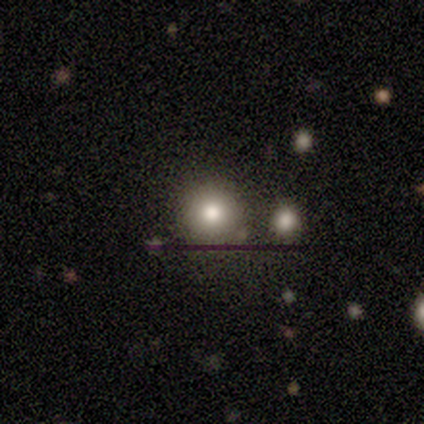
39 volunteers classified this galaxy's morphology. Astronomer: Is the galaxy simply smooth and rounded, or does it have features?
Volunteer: smooth — 67%.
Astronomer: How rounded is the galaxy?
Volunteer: round — 88%.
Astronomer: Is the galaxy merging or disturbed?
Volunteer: none — 79%.